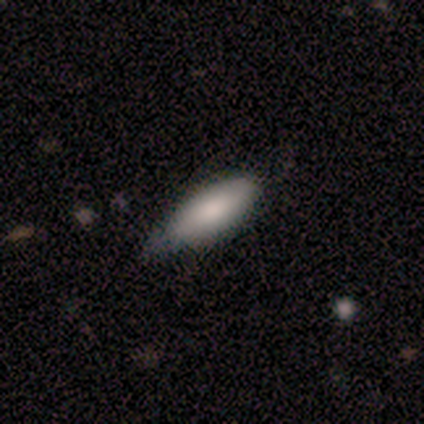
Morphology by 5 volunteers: type=smooth (100%); roundness=in between (60%); merging=minor disturbance (60%).